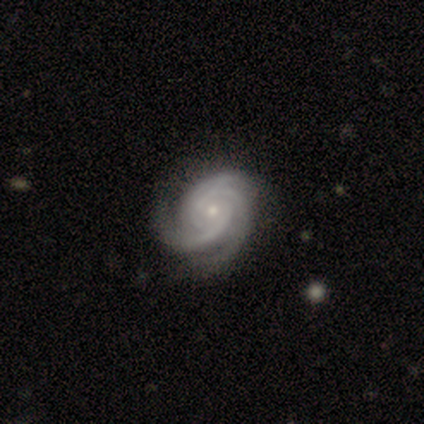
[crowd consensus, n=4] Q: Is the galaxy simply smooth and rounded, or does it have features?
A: featured or disk — 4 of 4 (100%).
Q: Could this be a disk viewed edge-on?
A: no — 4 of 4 (100%).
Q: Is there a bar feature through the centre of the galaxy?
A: no — 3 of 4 (75%).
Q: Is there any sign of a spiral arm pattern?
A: yes — 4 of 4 (100%).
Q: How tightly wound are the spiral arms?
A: tight — 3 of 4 (75%).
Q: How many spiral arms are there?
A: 2 — 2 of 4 (50%, tied with 3).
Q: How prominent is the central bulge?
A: small — 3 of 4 (75%).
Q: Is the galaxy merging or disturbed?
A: none — 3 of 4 (75%).